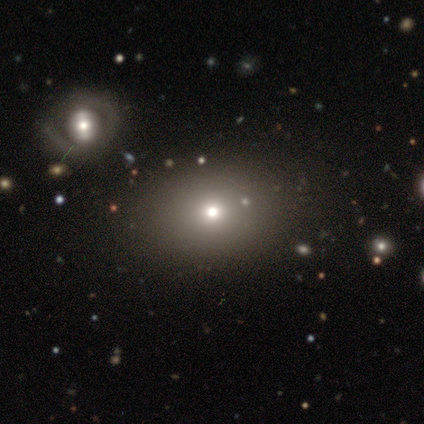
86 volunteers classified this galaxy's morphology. Smooth or featured?
  - smooth: 67% *
  - star or artifact: 19%
  - featured or disk: 14%
How rounded?
  - in between: 52% *
  - round: 48%
  - cigar-shaped: 0%
Merging?
  - none: 43% *
  - merger: 11%
  - major disturbance: 6%
  - minor disturbance: 4%